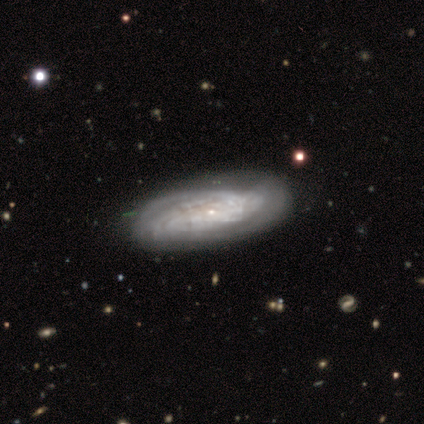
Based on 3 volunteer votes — Smooth or featured?
  - featured or disk: 67% *
  - smooth: 33%
  - star or artifact: 0%
Edge-on disk?
  - yes: 50% * (tied)
  - no: 50% * (tied)
Edge-on bulge?
  - rounded: 100% *
  - boxy: 0%
  - none: 0%
Merging?
  - none: 67% *
  - minor disturbance: 33%
  - major disturbance: 0%
  - merger: 0%